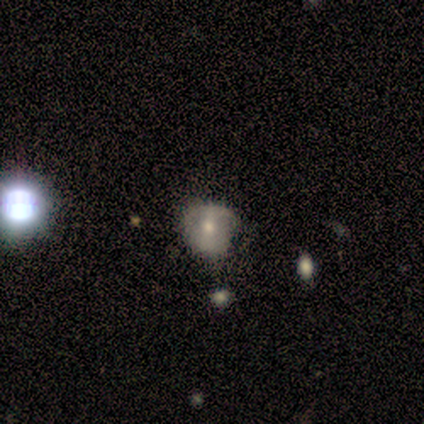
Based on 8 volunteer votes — Morphology: type=smooth (62%); roundness=in between (80%); merging=none (50%).